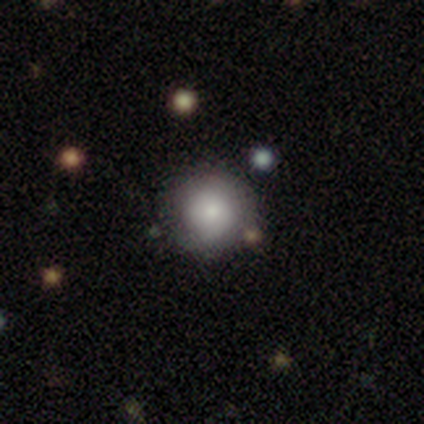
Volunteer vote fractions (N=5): This appears to be a smooth galaxy with no disk features (100%) that is round (100%). Merging: none (60%).